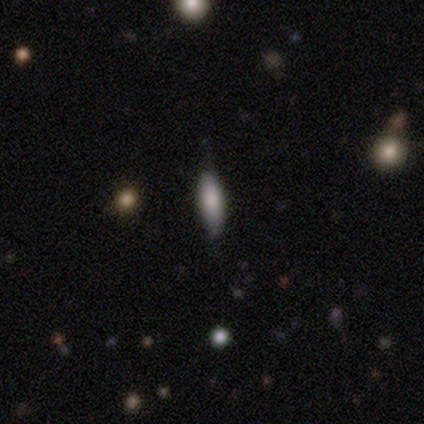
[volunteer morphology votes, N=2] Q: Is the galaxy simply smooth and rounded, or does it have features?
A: smooth — 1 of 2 (50%, tied with star or artifact).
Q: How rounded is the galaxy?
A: in between — 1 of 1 (100%).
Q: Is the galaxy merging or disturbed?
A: none — 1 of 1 (100%).